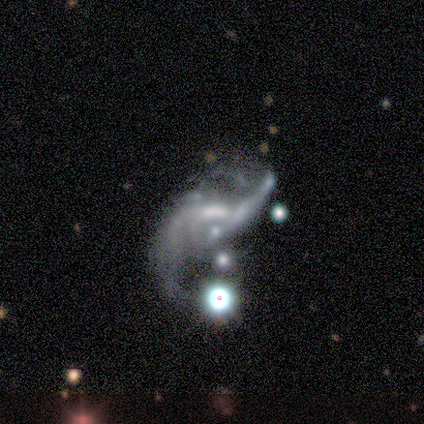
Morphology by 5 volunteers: Q: Smooth or featured?
A: featured or disk (80%); runner-up: star or artifact (20%)
Q: Edge-on disk?
A: no (100%)
Q: Bar?
A: weak (50%); runner-up: strong (25%)
Q: Spiral arms?
A: yes (75%); runner-up: no (25%)
Q: Spiral winding?
A: loose (67%); runner-up: medium (33%)
Q: Spiral arm count?
A: 2 (100%)
Q: Bulge size?
A: none (50%); runner-up: moderate (25%)
Q: Merging?
A: major disturbance (50%); runner-up: minor disturbance (25%)